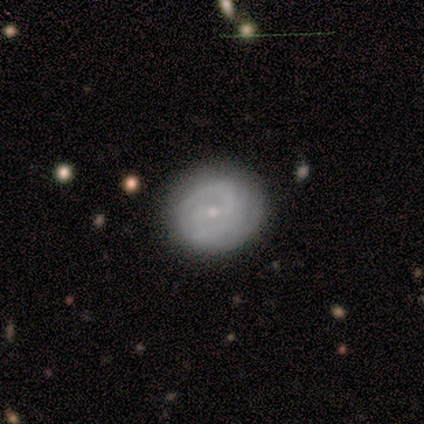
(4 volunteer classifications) A featured or disk galaxy (75%) with no bar (67%), 2 (100%) medium (100%) spiral arms (67%) and a small central bulge (100%).

Vote fractions:
- Smooth or featured? featured or disk: 75% / smooth: 25% / star or artifact: 0%
- Edge-on disk? no: 100% / yes: 0%
- Bar? no: 67% / weak: 33% / strong: 0%
- Spiral arms? yes: 67% / no: 33%
- Spiral winding? medium: 100% / tight: 0% / loose: 0%
- Spiral arm count? 2: 100% / 1: 0% / 3: 0% / 4: 0% / more than 4: 0% / can't tell: 0%
- Bulge size? small: 100% / dominant: 0% / large: 0% / moderate: 0% / none: 0%
- Merging? none: 75% / minor disturbance: 25% / major disturbance: 0% / merger: 0%